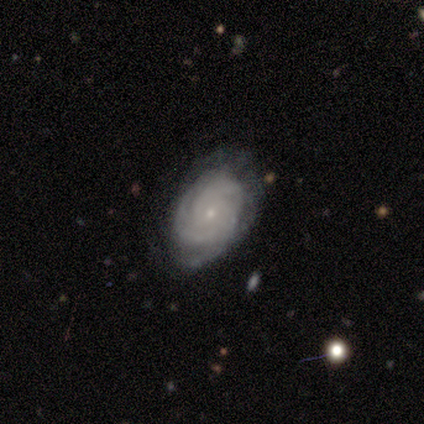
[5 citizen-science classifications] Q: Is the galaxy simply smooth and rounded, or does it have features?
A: featured or disk — 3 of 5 (60%).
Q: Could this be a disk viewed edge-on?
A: no — 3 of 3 (100%).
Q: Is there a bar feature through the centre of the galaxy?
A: no — 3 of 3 (100%).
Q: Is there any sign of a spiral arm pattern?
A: yes — 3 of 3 (100%).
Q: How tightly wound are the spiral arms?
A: tight — 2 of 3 (67%).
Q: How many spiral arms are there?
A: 3 — 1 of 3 (33%, tied with 4 and can't tell).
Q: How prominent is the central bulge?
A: small — 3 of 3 (100%).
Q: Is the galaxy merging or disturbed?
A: none — 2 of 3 (67%).